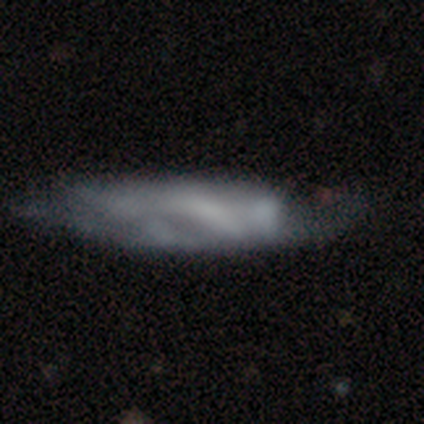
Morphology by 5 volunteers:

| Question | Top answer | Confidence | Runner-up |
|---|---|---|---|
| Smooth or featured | smooth | 60% | featured or disk (40%) |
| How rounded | cigar-shaped | 67% | in between (33%) |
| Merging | none | 60% | merger (40%) |